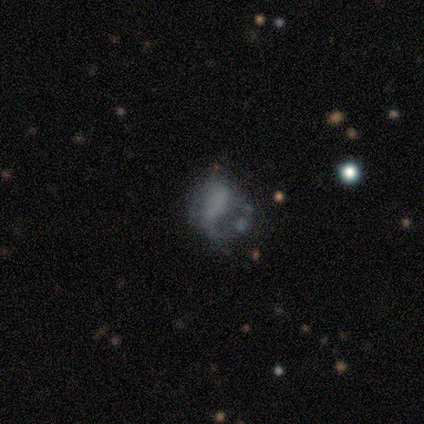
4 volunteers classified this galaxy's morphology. This is likely a smooth galaxy (75%). How rounded: likely in between (67%). Merging: possibly major disturbance (50%).